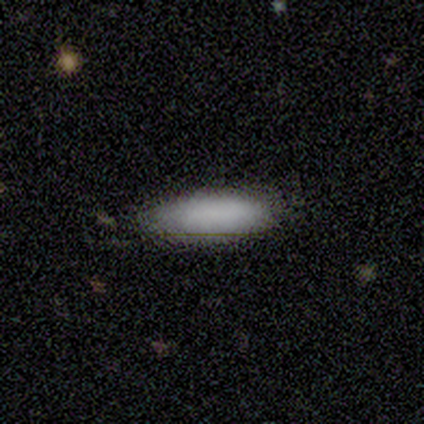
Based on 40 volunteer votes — smooth-or-featured: smooth: 82% | featured or disk: 10% | star or artifact: 8%
  how-rounded: cigar-shaped: 55% | in between: 45% | round: 0%
  merging: none: 81% | minor disturbance: 19% | major disturbance: 0% | merger: 0%